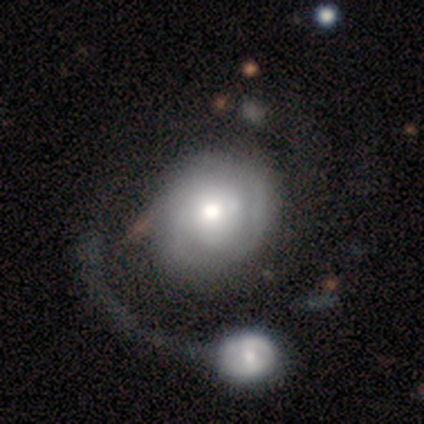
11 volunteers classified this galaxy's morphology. Smooth or featured? featured or disk (100%)
Edge-on disk? no (91%)
Bar? no (80%)
Spiral arms? yes (70%)
Spiral winding? tight (71%)
Spiral arm count? can't tell (71%)
Bulge size? dominant (30%, tied with moderate)
Merging? merger (45%)